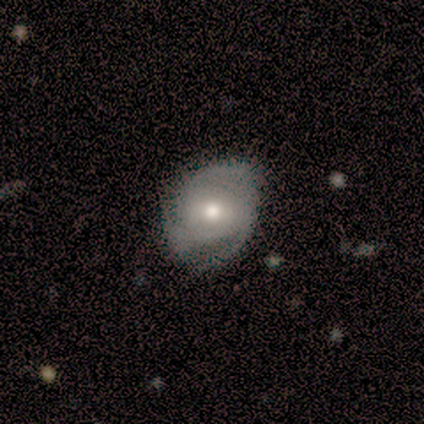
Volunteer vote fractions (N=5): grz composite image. It shows a featured or disk galaxy (100%) with no bar (60%), 3 (80%) medium (60%) spiral arms (100%) and a moderate central bulge (80%). Merging: none (80%).